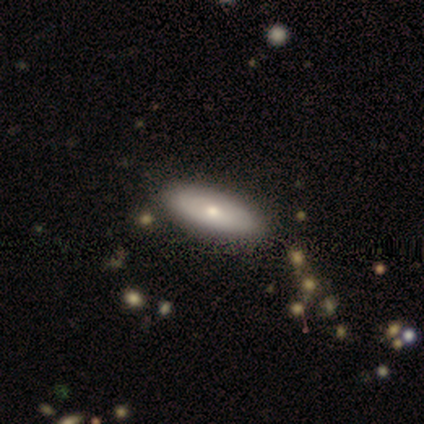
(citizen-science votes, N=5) Smooth or featured: smooth — 60% (featured or disk — 40%)
How rounded: in between — 100%
Merging: none — 60% (minor disturbance — 40%)